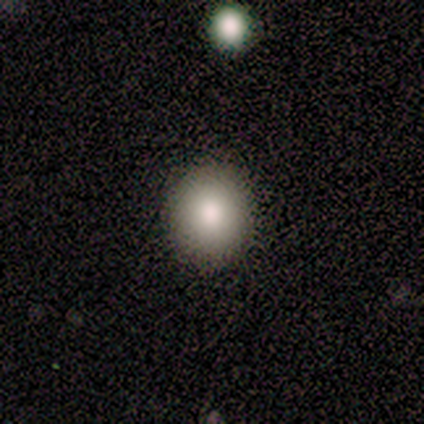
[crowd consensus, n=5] Smooth or featured? smooth (60%)
How rounded? round (100%)
Merging? none (100%)